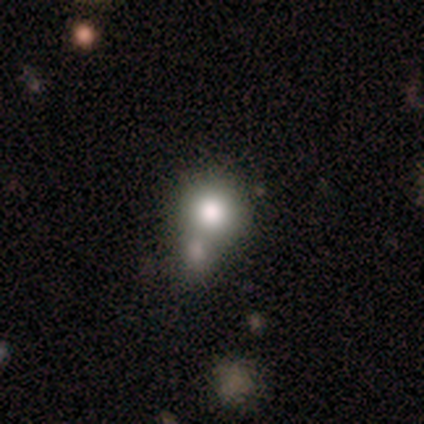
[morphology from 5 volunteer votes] Overall: smooth (80%). How rounded: round (100%). Merging: none (60%; merger 40%).